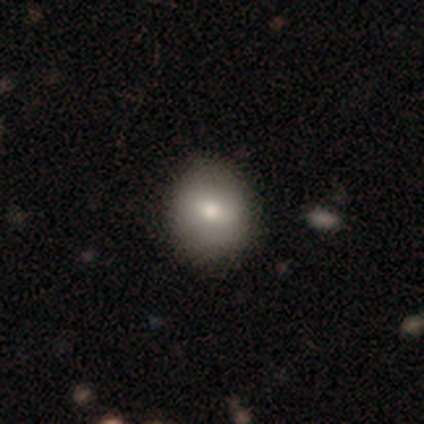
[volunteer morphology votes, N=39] Overall: smooth (82%). How rounded: round (81%). Merging: none (83%).